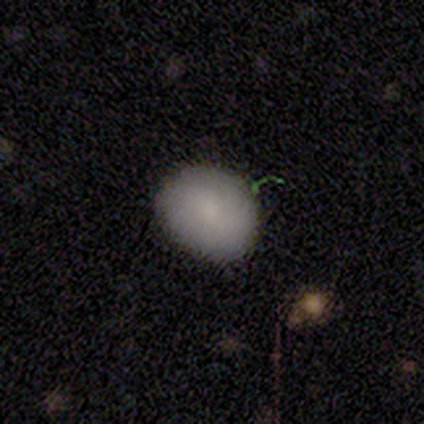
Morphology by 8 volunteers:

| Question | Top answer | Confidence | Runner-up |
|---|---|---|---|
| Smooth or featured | smooth | 75% | featured or disk (25%) |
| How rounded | round | 83% | in between (17%) |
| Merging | none | 100% | — |